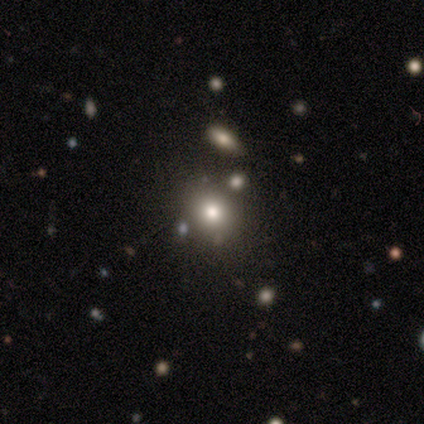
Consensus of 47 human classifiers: smooth_or_featured: smooth (p=0.70) [alt: star or artifact p=0.26]
how_rounded: round (p=0.82) [alt: in between p=0.18]
merging: none (p=0.71) [alt: merger p=0.14]